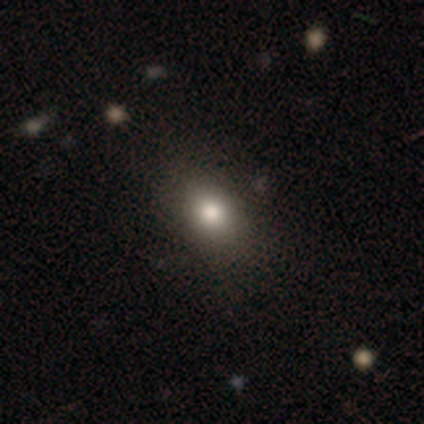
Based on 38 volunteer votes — A smooth galaxy with no disk features (82%) that is in between round and cigar-shaped (65%).

Vote fractions:
- Smooth or featured? smooth: 82% / star or artifact: 11% / featured or disk: 8%
- How rounded? in between: 65% / round: 29% / cigar-shaped: 6%
- Merging? none: 88% / minor disturbance: 9% / major disturbance: 3% / merger: 0%